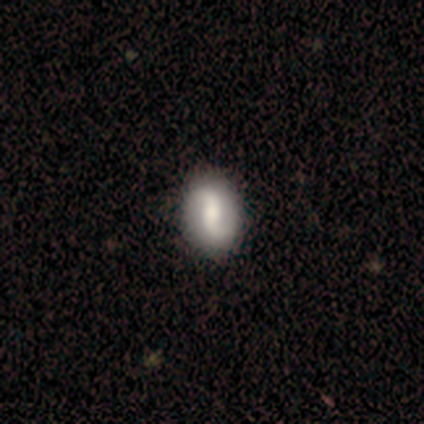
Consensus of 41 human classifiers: Smooth or featured? featured or disk (59%)
Edge-on disk? no (100%)
Bar? weak (38%)
Spiral arms? yes (96%)
Spiral winding? loose (70%)
Spiral arm count? 2 (100%)
Bulge size? moderate (50%)
Merging? none (48%)